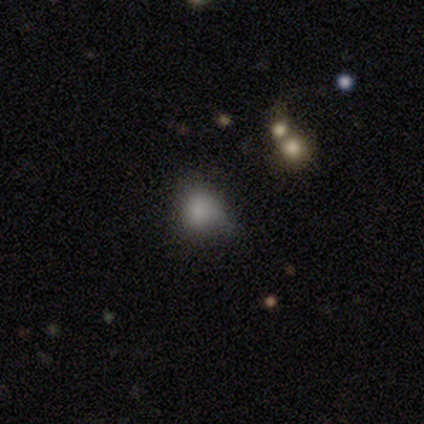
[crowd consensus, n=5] Smooth or featured? star or artifact (60%)